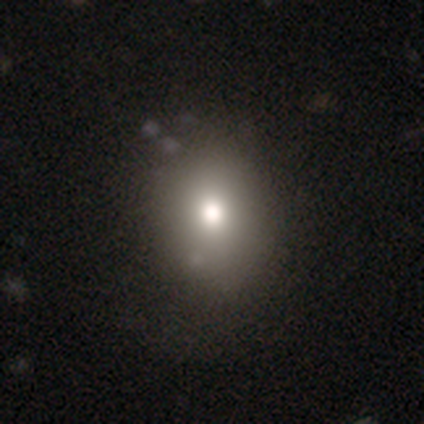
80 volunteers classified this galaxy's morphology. Smooth or featured? smooth (75%)
How rounded? round (53%)
Merging? none (35%)